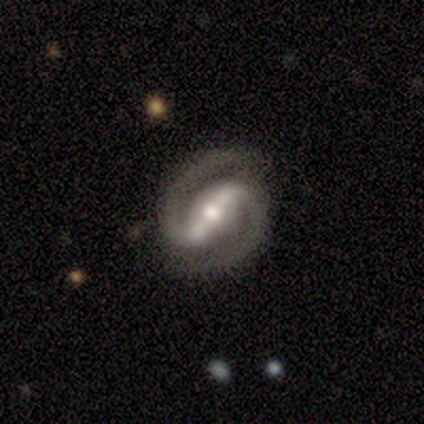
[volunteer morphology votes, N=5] Smooth or featured?
  - featured or disk: 100% *
  - smooth: 0%
  - star or artifact: 0%
Edge-on disk?
  - no: 100% *
  - yes: 0%
Bar?
  - strong: 80% *
  - no: 20%
  - weak: 0%
Spiral arms?
  - yes: 100% *
  - no: 0%
Spiral winding?
  - tight: 60% *
  - medium: 40%
  - loose: 0%
Spiral arm count?
  - 2: 100% *
  - 1: 0%
  - 3: 0%
  - 4: 0%
  - more than 4: 0%
  - can't tell: 0%
Bulge size?
  - moderate: 60% *
  - large: 20%
  - small: 20%
  - dominant: 0%
  - none: 0%
Merging?
  - none: 100% *
  - minor disturbance: 0%
  - major disturbance: 0%
  - merger: 0%